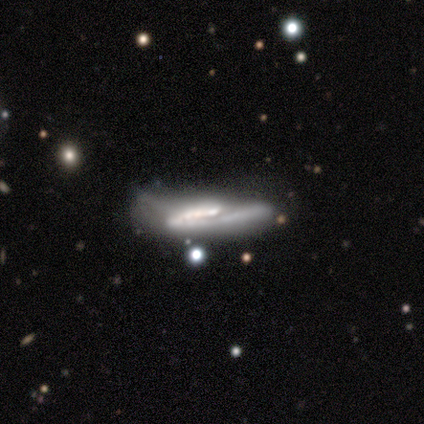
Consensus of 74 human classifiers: featured or disk 78%, smooth 19%, star or artifact 3%. Down the decision tree: edge-on disk — yes (59%); edge-on bulge — none (38%); merging — none (32%).